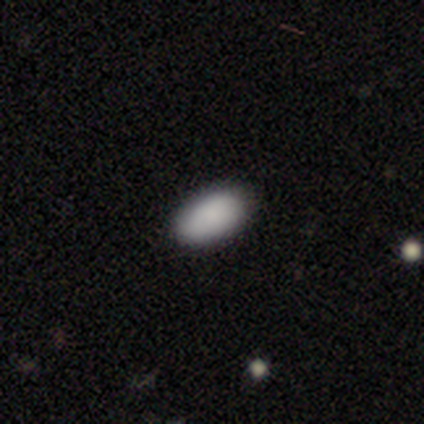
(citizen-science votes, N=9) Overall: smooth (89%). How rounded: in between (100%). Merging: none (100%).